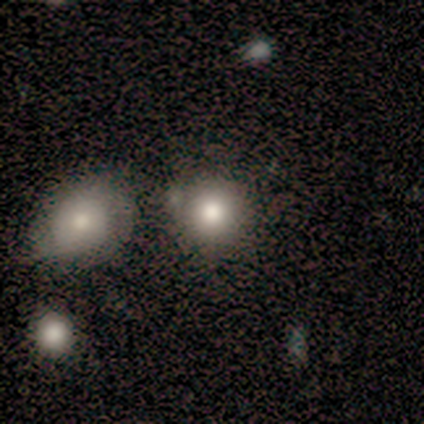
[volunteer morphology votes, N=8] This appears to be a smooth galaxy with no disk features (88%) that is round (71%). Merging: none (50%).